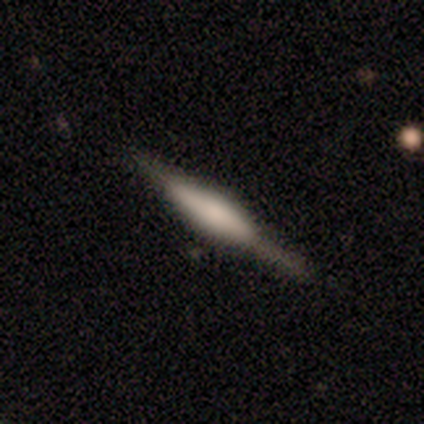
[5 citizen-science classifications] Morphology: type=featured or disk (80%); edge-on=yes (100%); edge-on bulge=rounded (100%); merging=none (100%).